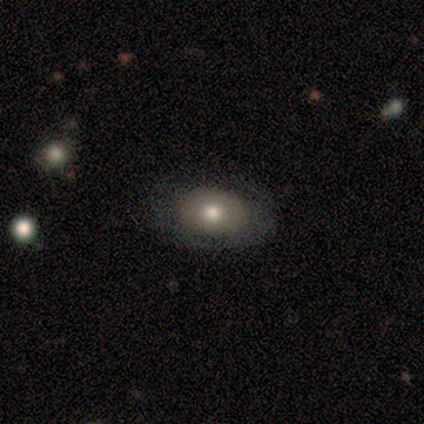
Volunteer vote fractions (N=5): Overall: smooth (60%; featured or disk 40%). How rounded: in between (67%; round 33%). Merging: none (80%).